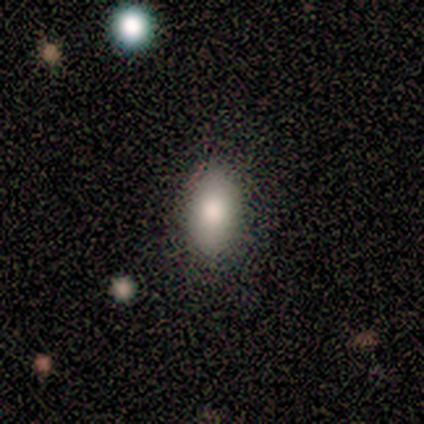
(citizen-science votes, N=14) Smooth or featured? smooth (64%)
How rounded? in between (89%)
Merging? none (86%)